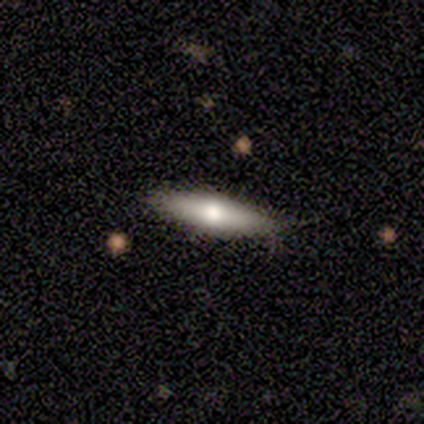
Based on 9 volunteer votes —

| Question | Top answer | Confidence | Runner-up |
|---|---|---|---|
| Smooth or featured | smooth | 67% | featured or disk (33%) |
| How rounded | in between | 83% | cigar-shaped (17%) |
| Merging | none | 89% | minor disturbance (11%) |